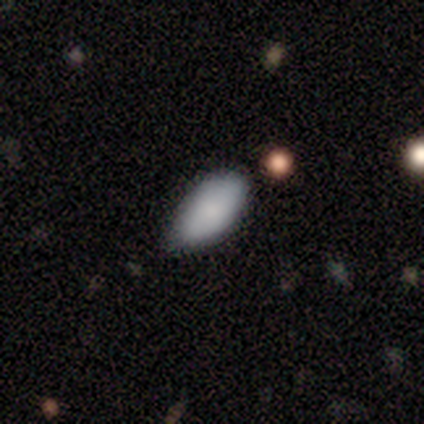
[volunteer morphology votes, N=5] smooth 100%, featured or disk 0%, star or artifact 0%. Down the decision tree: how rounded — in between (60%); merging — none (80%).